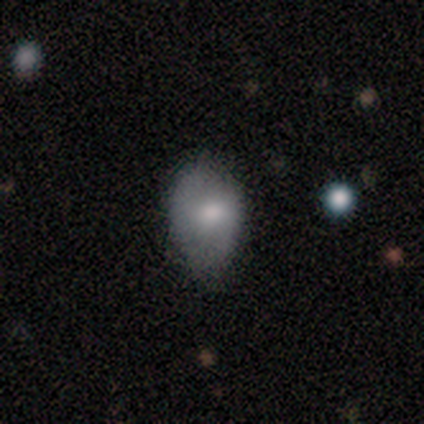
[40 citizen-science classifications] This appears to be a smooth galaxy with no disk features (57%) that is in between round and cigar-shaped (87%). Merging: none (55%).